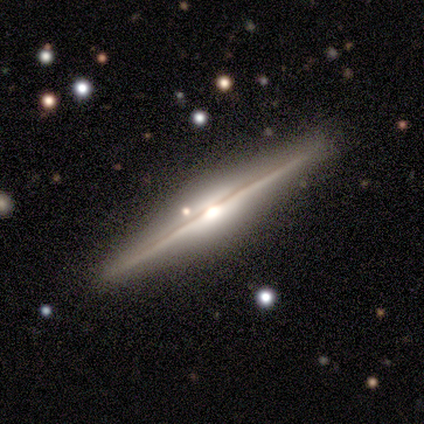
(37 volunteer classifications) featured or disk 89%, smooth 8%, star or artifact 3%. Down the decision tree: edge-on disk — yes (100%); edge-on bulge — rounded (82%); merging — none (83%).